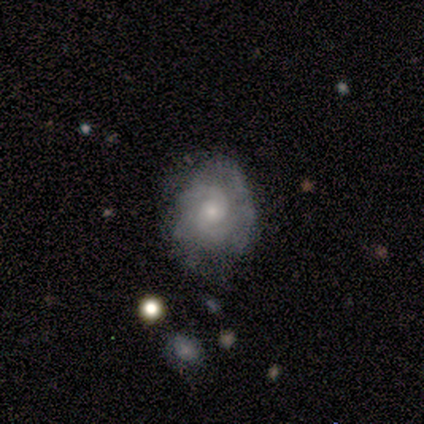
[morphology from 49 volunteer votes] smooth-or-featured: featured or disk: 73% | smooth: 22% | star or artifact: 4%
  disk-edge-on: no: 94% | yes: 6%
    bar: no: 94% | strong: 3% | weak: 3%
    has-spiral-arms: yes: 85% | no: 15%
      spiral-winding: tight: 45% (tied) | medium: 45% (tied) | loose: 10%
      spiral-arm-count: 2: 55% | can't tell: 31% | 3: 10% | more than 4: 3% | 1: 0% | 4: 0%
    bulge-size: small: 68% | moderate: 32% | dominant: 0% | large: 0% | none: 0%
  merging: none: 55% | minor disturbance: 30% | major disturbance: 13% | merger: 2%